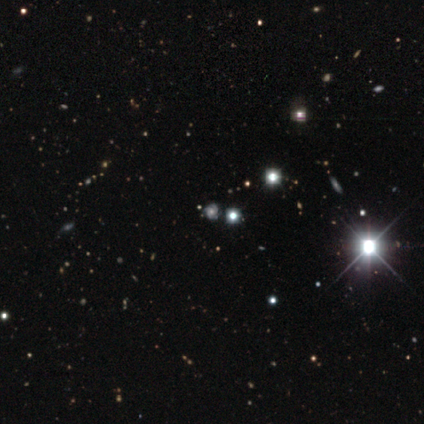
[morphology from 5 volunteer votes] Smooth or featured? star or artifact (60%)